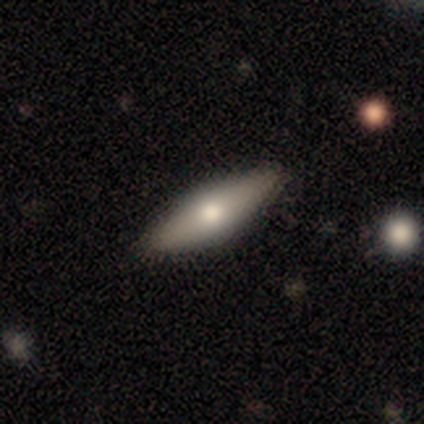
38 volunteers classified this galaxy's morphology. This appears to be a smooth galaxy with no disk features (61%) that is cigar-shaped (57%). Merging: none (83%).